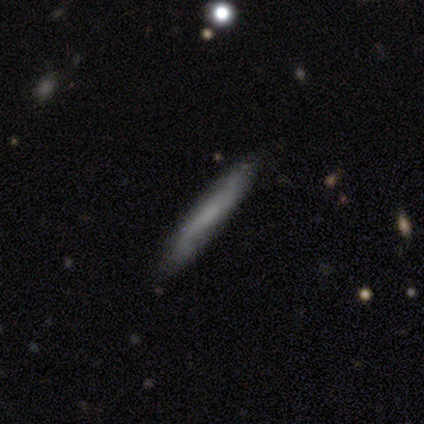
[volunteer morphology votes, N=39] Overall: smooth (62%; featured or disk 36%). How rounded: cigar-shaped (96%). Merging: none (79%).